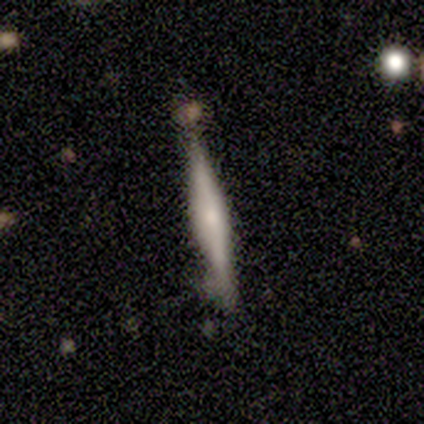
featured or disk 75%, smooth 25%, star or artifact 0%. Down the decision tree: edge-on disk — yes (100%); edge-on bulge — rounded (100%); merging — none (100%).